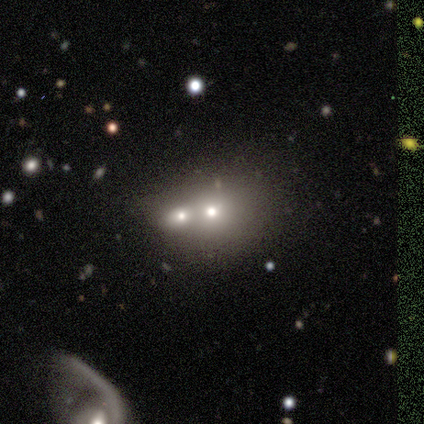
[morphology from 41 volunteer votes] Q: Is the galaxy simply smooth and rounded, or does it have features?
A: smooth — 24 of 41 (59%).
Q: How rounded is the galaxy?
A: round — 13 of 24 (54%).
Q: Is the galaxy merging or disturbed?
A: merger — 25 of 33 (76%).